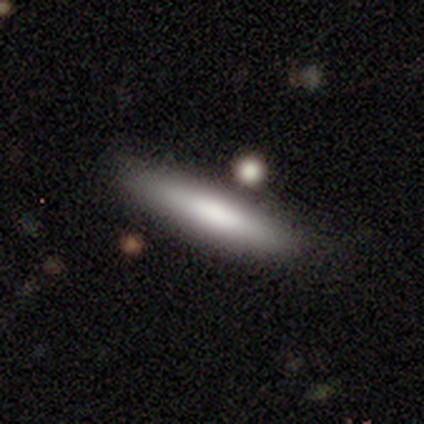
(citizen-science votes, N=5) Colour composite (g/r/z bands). It shows a featured or disk galaxy (60%) viewed edge-on (67%) with a boxy central bulge (50%, tied with none). Merging: none (60%).